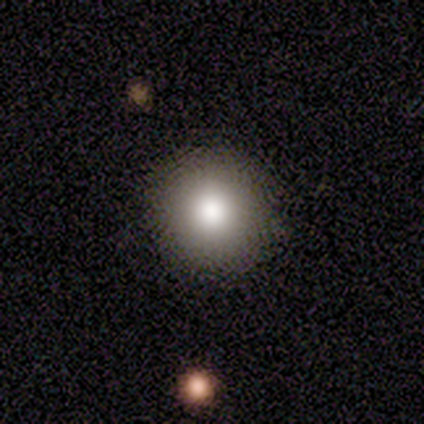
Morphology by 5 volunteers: Smooth or featured?
  - smooth: 80% *
  - featured or disk: 20%
  - star or artifact: 0%
How rounded?
  - round: 100% *
  - in between: 0%
  - cigar-shaped: 0%
Merging?
  - none: 100% *
  - minor disturbance: 0%
  - major disturbance: 0%
  - merger: 0%